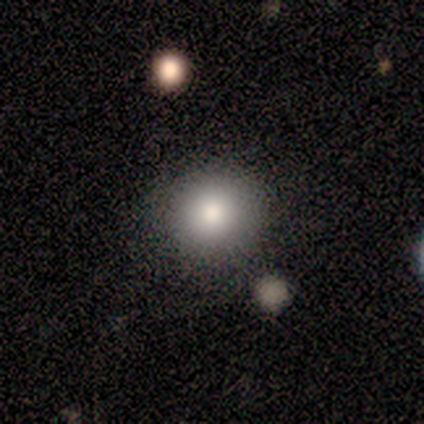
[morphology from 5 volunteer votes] This appears to be a smooth galaxy with no disk features (60%) that is round (100%). Merging: none (80%).